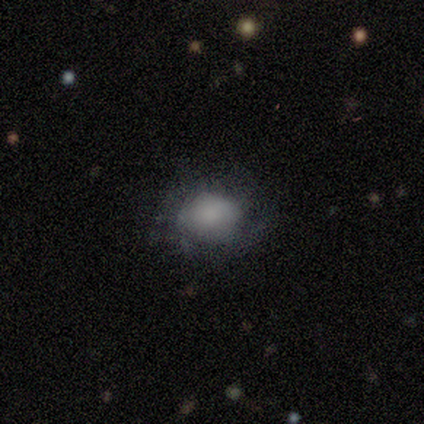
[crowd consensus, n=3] Smooth or featured: smooth — 33% (tied with featured or disk — 33%; star or artifact — 33%)
How rounded: round — 100%
Merging: none — 50% (tied with minor disturbance — 50%)